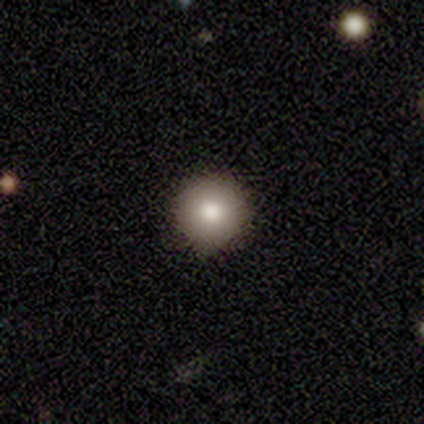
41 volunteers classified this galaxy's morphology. Q: Smooth or featured?
A: smooth (71%); runner-up: featured or disk (22%)
Q: How rounded?
A: round (100%)
Q: Merging?
A: none (58%); runner-up: minor disturbance (8%)